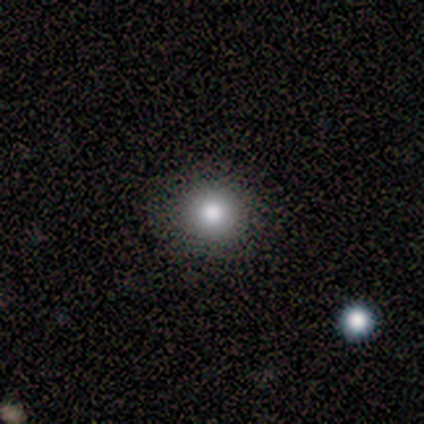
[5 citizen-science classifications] A star or artifact, not a galaxy (60%).

Vote fractions:
- Smooth or featured? star or artifact: 60% / smooth: 40% / featured or disk: 0%